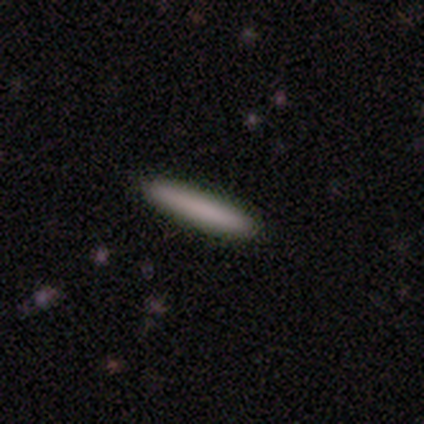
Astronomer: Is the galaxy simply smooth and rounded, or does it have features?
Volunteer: smooth — 100%.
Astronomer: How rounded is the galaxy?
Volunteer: cigar-shaped — 100%.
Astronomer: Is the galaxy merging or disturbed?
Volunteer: none — 100%.